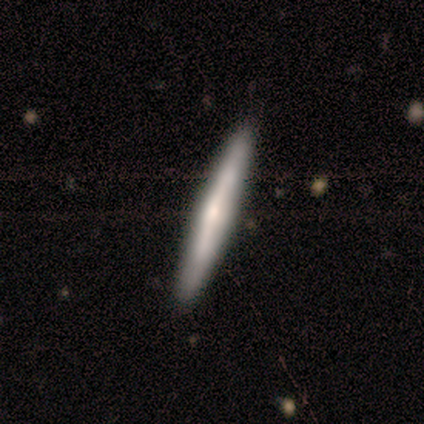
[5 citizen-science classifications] Smooth or featured: featured or disk — 100%
Edge-on disk: yes — 80% (no — 20%)
Edge-on bulge: none — 50% (tied with rounded — 50%)
Merging: none — 100%